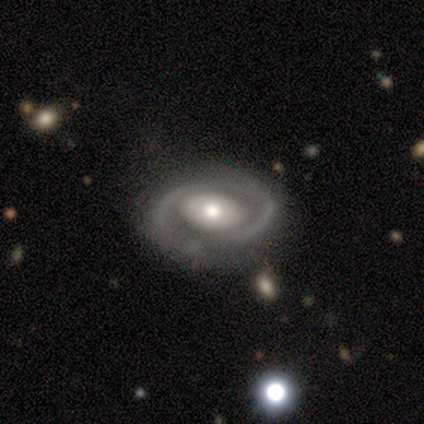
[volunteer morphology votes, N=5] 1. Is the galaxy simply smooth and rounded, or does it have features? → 100% featured or disk, 0% smooth, 0% star or artifact.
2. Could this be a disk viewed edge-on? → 100% no, 0% yes.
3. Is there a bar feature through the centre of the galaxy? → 100% no, 0% strong, 0% weak.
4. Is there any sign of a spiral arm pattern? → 60% no, 40% yes.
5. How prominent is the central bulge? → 60% moderate, 40% small, 0% dominant, 0% large, 0% none.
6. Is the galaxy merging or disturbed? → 80% none, 20% minor disturbance, 0% major disturbance, 0% merger.